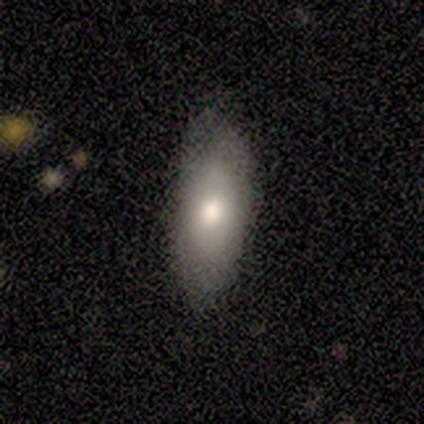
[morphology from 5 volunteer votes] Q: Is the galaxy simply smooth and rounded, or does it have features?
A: smooth — 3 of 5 (60%).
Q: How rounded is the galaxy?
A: in between — 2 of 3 (67%).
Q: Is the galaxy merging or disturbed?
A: none — 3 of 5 (60%).